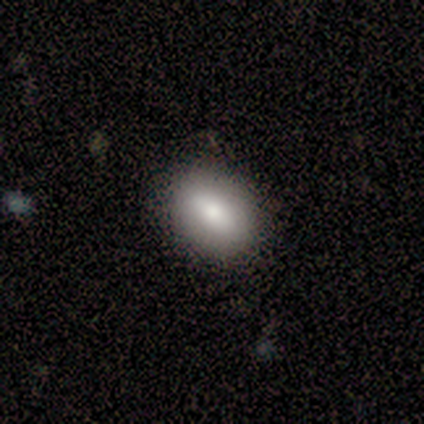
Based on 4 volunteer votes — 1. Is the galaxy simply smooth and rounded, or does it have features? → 100% smooth, 0% featured or disk, 0% star or artifact.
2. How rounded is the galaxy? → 50% round (tied), 50% in between (tied), 0% cigar-shaped.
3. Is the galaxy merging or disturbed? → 75% none, 25% minor disturbance, 0% major disturbance, 0% merger.